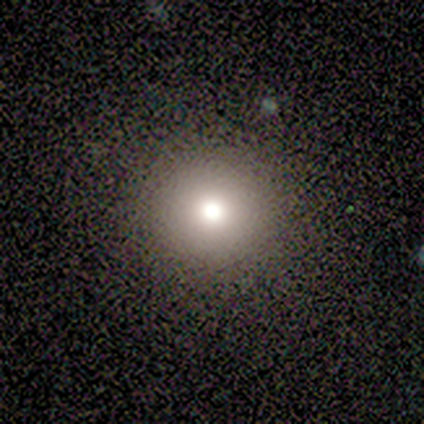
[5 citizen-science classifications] A smooth galaxy with no disk features (60%) that is round (100%). Merging: none (100%).